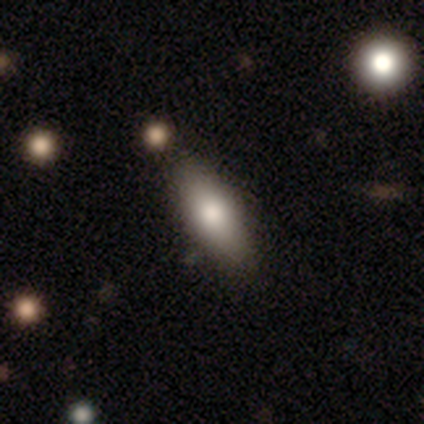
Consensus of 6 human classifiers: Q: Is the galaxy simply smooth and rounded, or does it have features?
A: smooth — 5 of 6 (83%).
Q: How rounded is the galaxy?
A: in between — 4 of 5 (80%).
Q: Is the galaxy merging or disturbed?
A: none — 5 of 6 (83%).